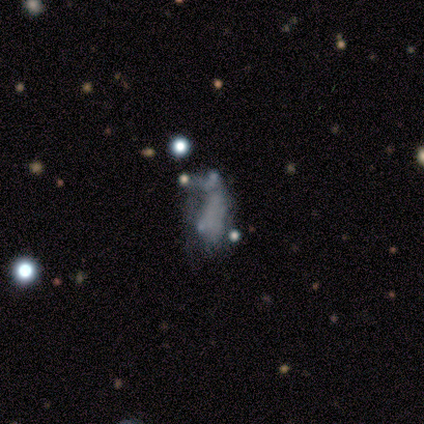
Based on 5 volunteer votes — This is likely a featured or disk galaxy (60%). It is clearly not viewed edge-on (100%). Bar: clearly no (100%). Spiral arm pattern: clearly no (100%). Central bulge: clearly none (100%). Merging: likely major disturbance (60%).